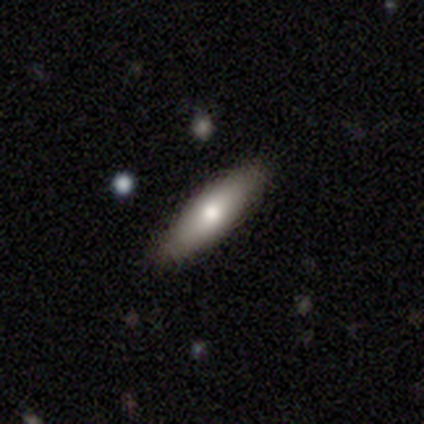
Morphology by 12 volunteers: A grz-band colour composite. It shows a smooth galaxy with no disk features (58%) that is cigar-shaped (71%). Merging: none (100%).